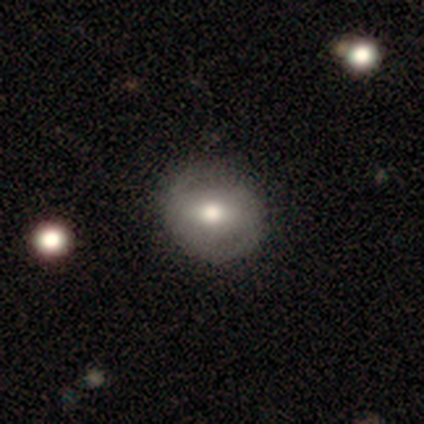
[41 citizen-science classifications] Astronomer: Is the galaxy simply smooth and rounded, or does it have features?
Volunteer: featured or disk — 56% (runner-up: smooth, 34%).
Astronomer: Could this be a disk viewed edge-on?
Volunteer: no — 87%.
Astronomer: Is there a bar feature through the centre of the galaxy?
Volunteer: weak — 45% (runner-up: strong, 40%).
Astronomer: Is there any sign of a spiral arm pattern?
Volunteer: yes — 60% (runner-up: no, 40%).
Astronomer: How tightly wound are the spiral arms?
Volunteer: loose — 42% (runner-up: tight, 33%).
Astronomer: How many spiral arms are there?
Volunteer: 2 — 92%.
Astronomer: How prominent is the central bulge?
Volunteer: moderate — 70%.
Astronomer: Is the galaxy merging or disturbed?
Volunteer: none — 51%.